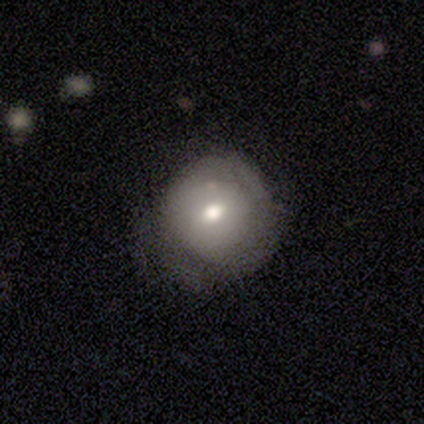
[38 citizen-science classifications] This appears to be a smooth galaxy with no disk features (50%) that is round (100%). Merging: none (63%).